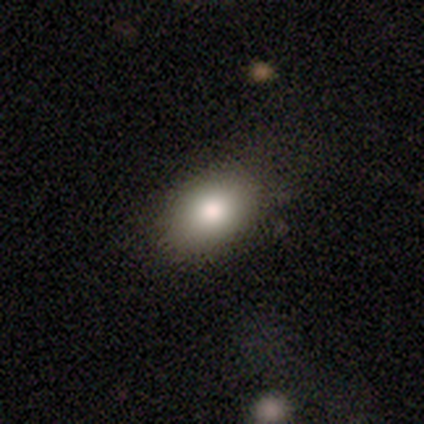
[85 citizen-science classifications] Overall: smooth (78%). How rounded: in between (82%). Merging: none (87%).